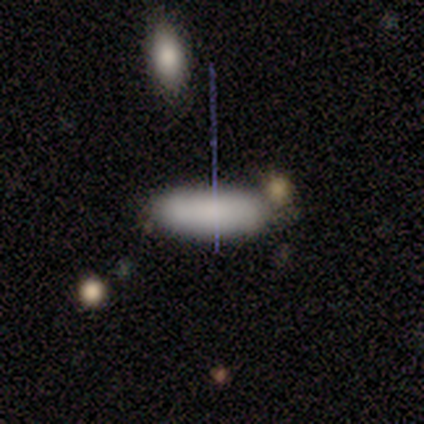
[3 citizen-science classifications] Smooth or featured?
  - smooth: 100% *
  - featured or disk: 0%
  - star or artifact: 0%
How rounded?
  - in between: 67% *
  - cigar-shaped: 33%
  - round: 0%
Merging?
  - none: 100% *
  - minor disturbance: 0%
  - major disturbance: 0%
  - merger: 0%